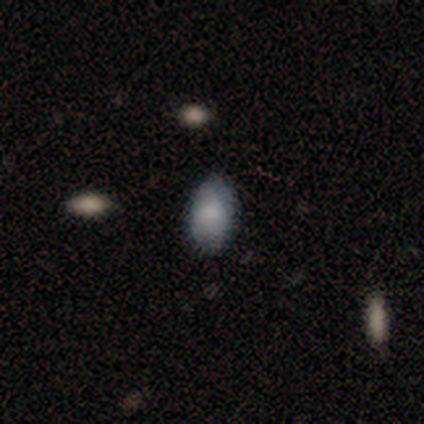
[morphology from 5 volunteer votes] A smooth galaxy with no disk features (100%) that is in between round and cigar-shaped (60%).

Vote fractions:
- Smooth or featured? smooth: 100% / featured or disk: 0% / star or artifact: 0%
- How rounded? in between: 60% / round: 40% / cigar-shaped: 0%
- Merging? none: 100% / minor disturbance: 0% / major disturbance: 0% / merger: 0%